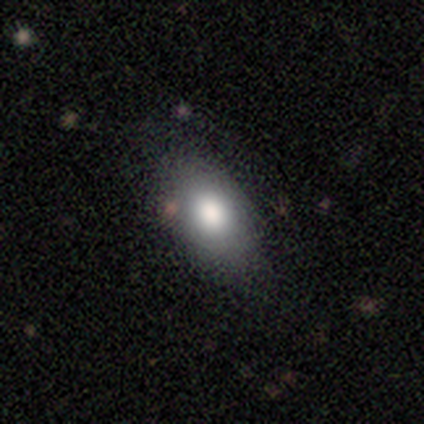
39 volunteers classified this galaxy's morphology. smooth 85%, featured or disk 8%, star or artifact 8%. Down the decision tree: how rounded — in between (91%); merging — none (58%).